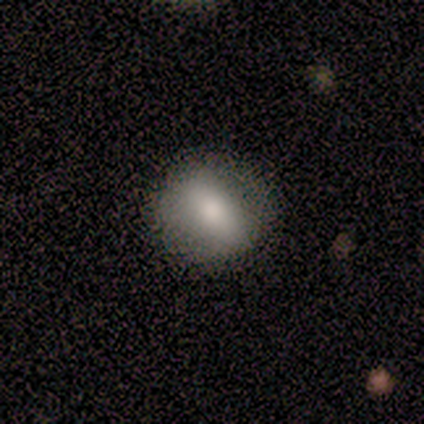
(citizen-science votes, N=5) Smooth or featured? 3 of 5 (60%) said smooth. How rounded? 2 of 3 (67%) said round. Merging? 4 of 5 (80%) said none.